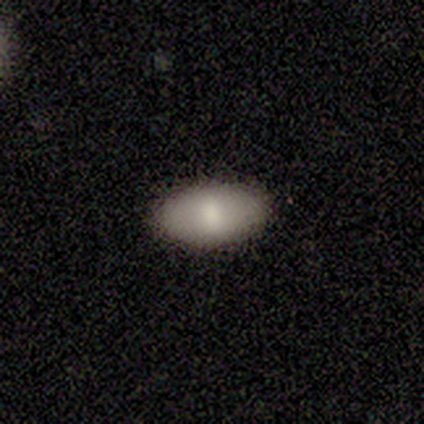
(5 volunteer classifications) This is clearly a smooth galaxy (80%). How rounded: clearly in between (100%). Merging: clearly none (100%).